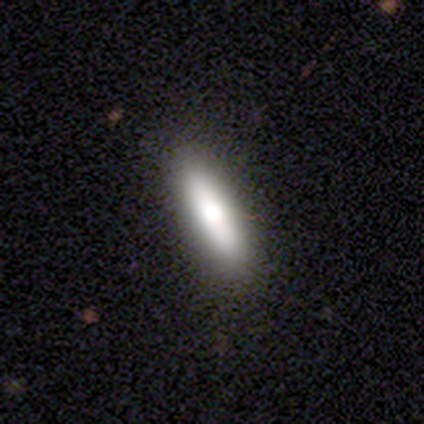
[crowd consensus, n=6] This appears to be a smooth galaxy with no disk features (100%) that is cigar-shaped (67%). Merging: none (100%).